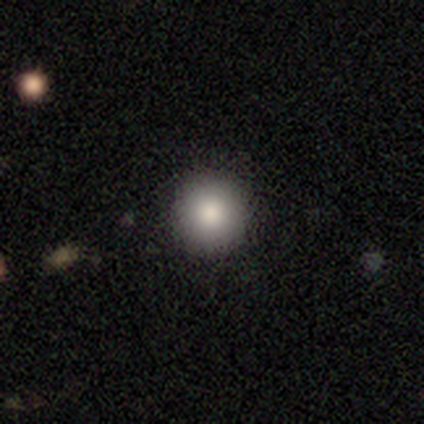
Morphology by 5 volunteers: Volunteers were most divided on "smooth or featured": smooth: 60%, featured or disk: 40%, star or artifact: 0%. More confident: how rounded — round (100%); merging — none (80%).